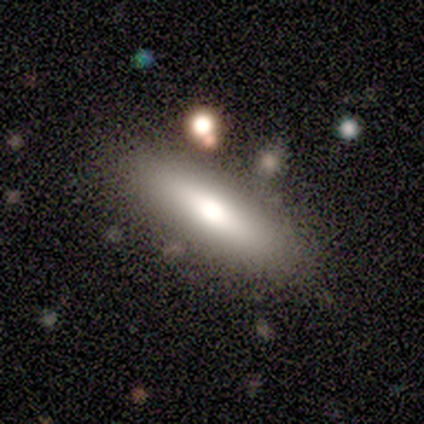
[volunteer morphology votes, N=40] Smooth or featured?
  - smooth: 78% *
  - featured or disk: 22%
  - star or artifact: 0%
How rounded?
  - cigar-shaped: 58% *
  - in between: 39%
  - round: 3%
Merging?
  - none: 80% *
  - minor disturbance: 8%
  - merger: 8%
  - major disturbance: 5%